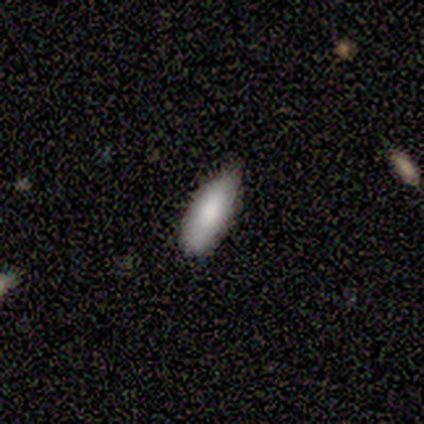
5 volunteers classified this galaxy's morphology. smooth 80%, featured or disk 20%, star or artifact 0%. Down the decision tree: how rounded — in between (75%); merging — none (100%).